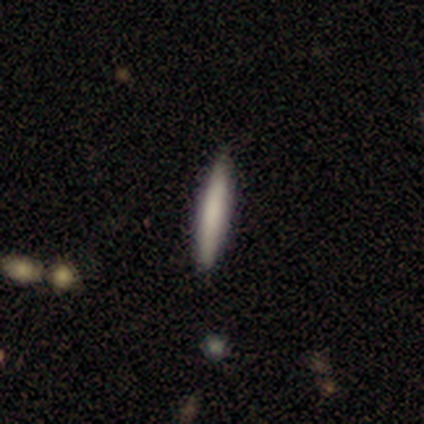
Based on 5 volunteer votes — This is likely a smooth galaxy (60%). How rounded: clearly cigar-shaped (100%). Merging: clearly none (100%).